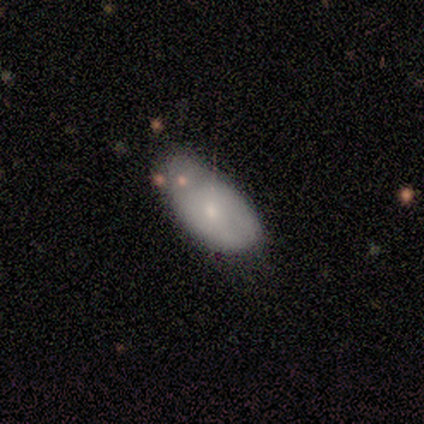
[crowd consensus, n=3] smooth-or-featured: smooth: 100% | featured or disk: 0% | star or artifact: 0%
  how-rounded: in between: 67% | cigar-shaped: 33% | round: 0%
  merging: none: 67% | minor disturbance: 33% | major disturbance: 0% | merger: 0%